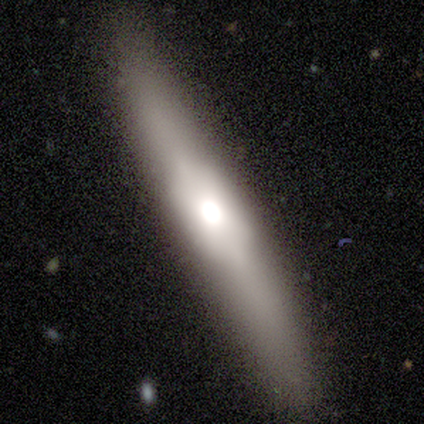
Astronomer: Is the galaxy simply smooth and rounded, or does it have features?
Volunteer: smooth — 50%, tied with featured or disk at 50%.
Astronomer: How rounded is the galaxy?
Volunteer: cigar-shaped — 100%.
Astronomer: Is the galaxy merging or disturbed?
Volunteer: none — 100%.